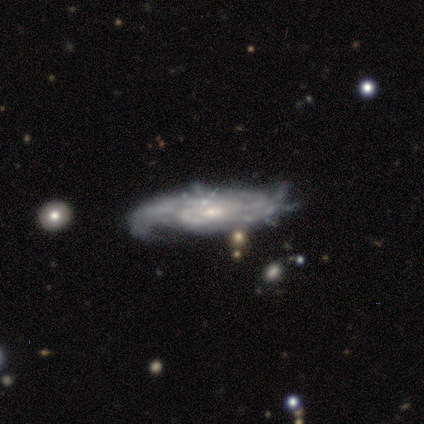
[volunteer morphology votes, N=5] smooth-or-featured: featured or disk: 100% | smooth: 0% | star or artifact: 0%
  disk-edge-on: no: 80% | yes: 20%
    bar: weak: 50% (tied) | no: 50% (tied) | strong: 0%
    has-spiral-arms: yes: 75% | no: 25%
      spiral-winding: tight: 67% | medium: 33% | loose: 0%
      spiral-arm-count: 3: 33% (tied) | 4: 33% (tied) | more than 4: 33% (tied) | 1: 0% | 2: 0% | can't tell: 0%
    bulge-size: small: 50% | moderate: 25% | none: 25% | dominant: 0% | large: 0%
  merging: none: 40% (tied) | major disturbance: 40% (tied) | minor disturbance: 20% | merger: 0%